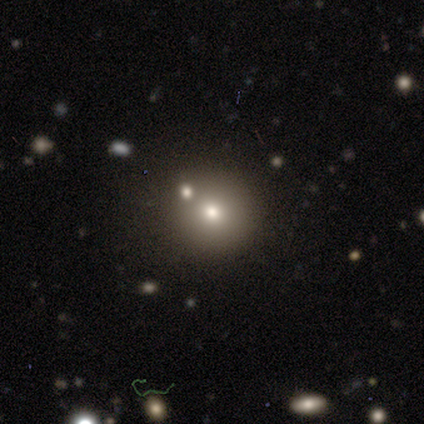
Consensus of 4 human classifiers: Overall: smooth (100%). How rounded: round (100%). Merging: none (100%).